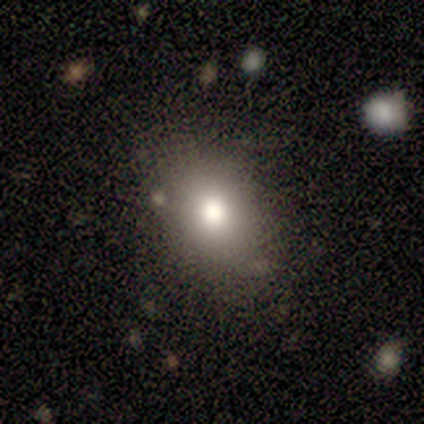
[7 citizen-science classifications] smooth-or-featured: smooth: 100% | featured or disk: 0% | star or artifact: 0%
  how-rounded: in between: 71% | round: 29% | cigar-shaped: 0%
  merging: none: 71% | minor disturbance: 29% | major disturbance: 0% | merger: 0%